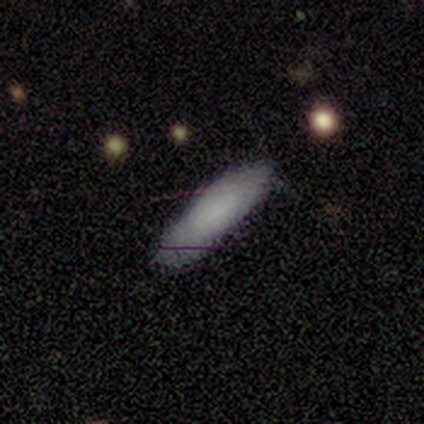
Morphology: type=smooth (70%); roundness=in between (50%); merging=none (79%).